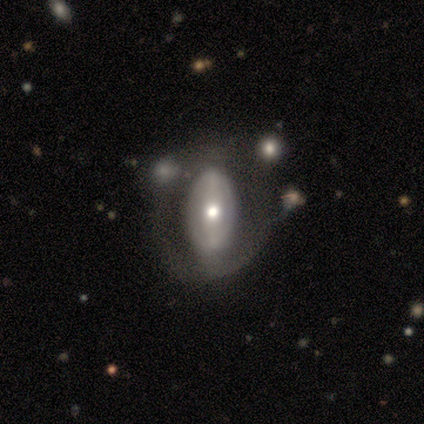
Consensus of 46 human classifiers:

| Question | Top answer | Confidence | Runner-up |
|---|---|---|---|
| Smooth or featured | featured or disk | 76% | smooth (17%) |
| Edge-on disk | no | 91% | yes (9%) |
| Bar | strong | 41% | no (34%) |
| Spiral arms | no | 66% | yes (34%) |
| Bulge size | moderate | 66% | large (28%) |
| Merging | none | 60% | minor disturbance (23%) |